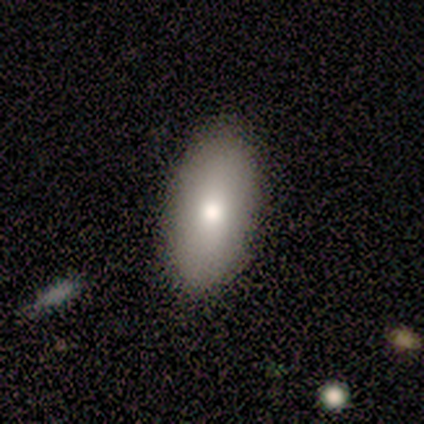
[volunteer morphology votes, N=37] Q: Smooth or featured?
A: smooth (84%); runner-up: star or artifact (11%)
Q: How rounded?
A: in between (97%); runner-up: cigar-shaped (3%)
Q: Merging?
A: none (88%); runner-up: merger (6%)